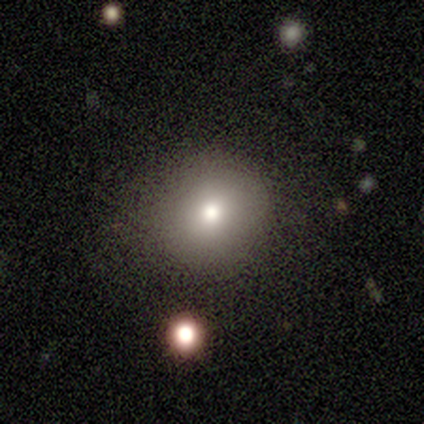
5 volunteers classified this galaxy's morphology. type=smooth (80%); roundness=round (50%, tied with in between); merging=none (75%).